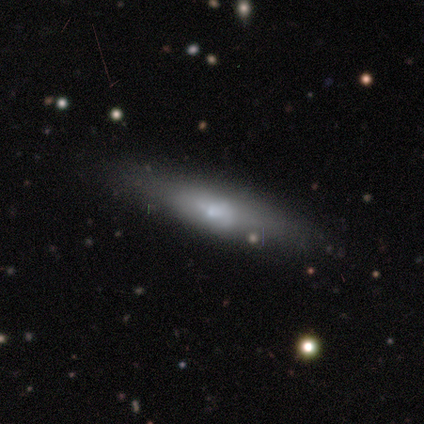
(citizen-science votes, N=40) smooth-or-featured: featured or disk: 50% | smooth: 48% | star or artifact: 2%
  disk-edge-on: yes: 60% | no: 40%
    edge-on-bulge: rounded: 50% | none: 33% | boxy: 17%
  merging: none: 44% | minor disturbance: 10% | major disturbance: 8% | merger: 3%